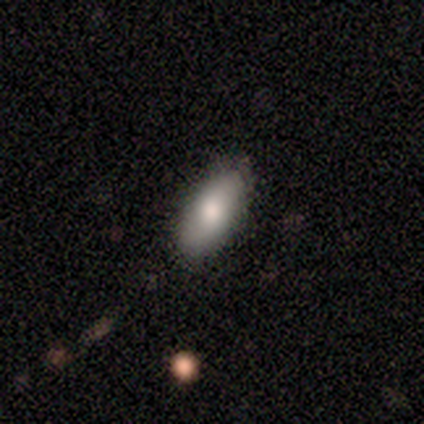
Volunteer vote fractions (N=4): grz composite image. It shows a smooth galaxy with no disk features (100%) that is in between round and cigar-shaped (100%). Merging: none (100%).